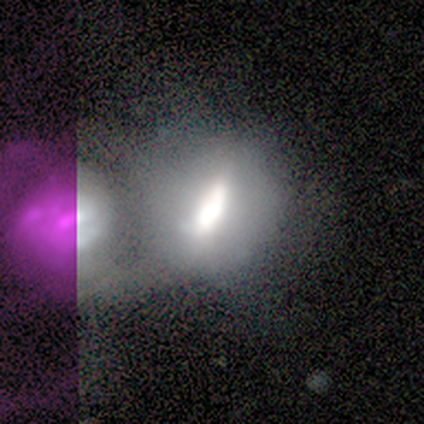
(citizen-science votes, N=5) A featured or disk galaxy (60%) with a weak bar (67%), no spiral arms (100%) and a moderate central bulge (67%). Merging: merger (60%).